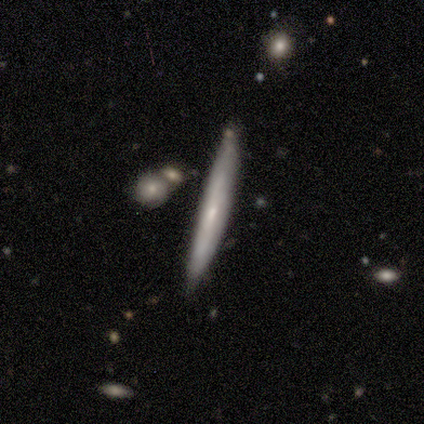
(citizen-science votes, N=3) Overall: smooth (67%; featured or disk 33%). How rounded: cigar-shaped (100%). Merging: none (67%; minor disturbance 33%).